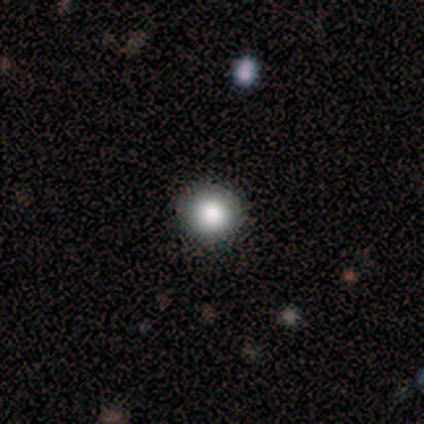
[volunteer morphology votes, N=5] A smooth galaxy with no disk features (100%) that is round (80%).

Vote fractions:
- Smooth or featured? smooth: 100% / featured or disk: 0% / star or artifact: 0%
- How rounded? round: 80% / in between: 20% / cigar-shaped: 0%
- Merging? none: 80% / major disturbance: 20% / minor disturbance: 0% / merger: 0%